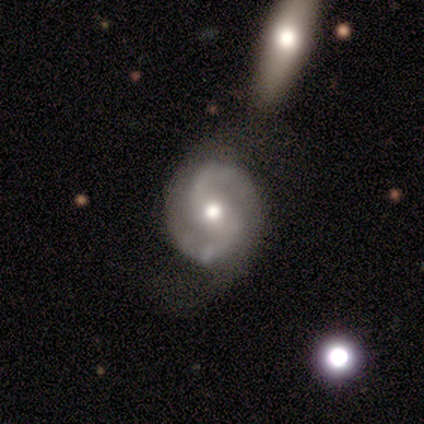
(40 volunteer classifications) Smooth or featured? 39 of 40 (98%) said featured or disk. Edge-on disk? 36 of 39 (92%) said no. Bar? 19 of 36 (53%) said no. Spiral arms? 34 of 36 (94%) said yes. Spiral winding? 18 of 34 (53%) said medium. Spiral arm count? 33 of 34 (97%) said 2. Bulge size? 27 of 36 (75%) said moderate. Merging? 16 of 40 (40%) said none.